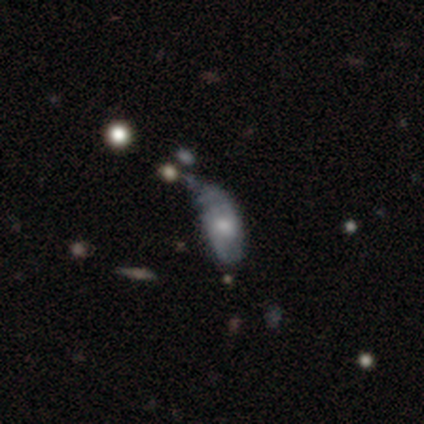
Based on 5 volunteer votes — Overall: smooth (80%). How rounded: in between (100%). Merging: minor disturbance (60%; major disturbance 40%).